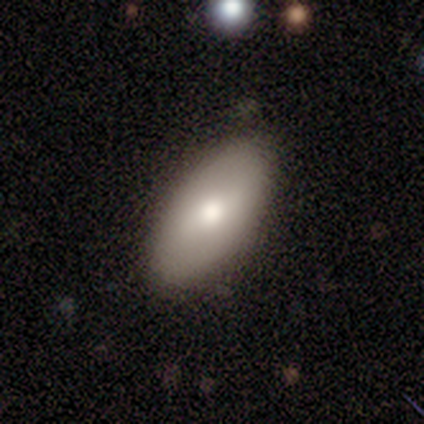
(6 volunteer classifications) smooth 67%, featured or disk 33%, star or artifact 0%. Down the decision tree: how rounded — in between (100%); merging — none (83%).